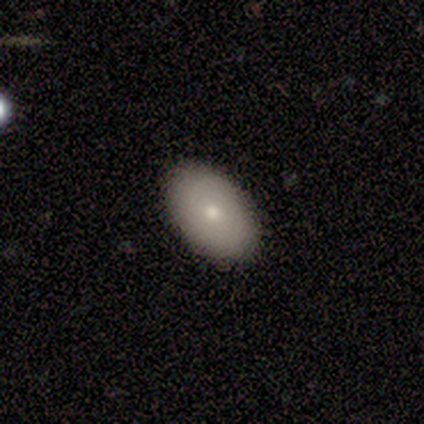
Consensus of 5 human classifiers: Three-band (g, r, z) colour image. It shows a smooth galaxy with no disk features (100%) that is in between round and cigar-shaped (80%). Merging: none (80%).